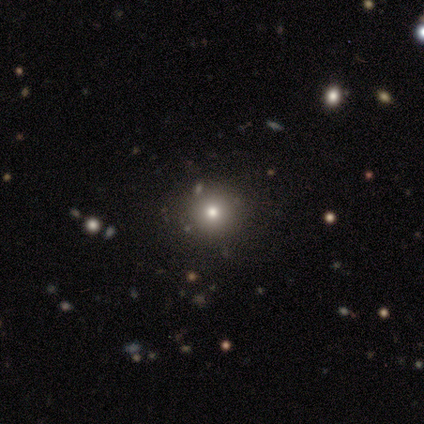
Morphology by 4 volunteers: Consensus on every question: smooth or featured — smooth (100%); how rounded — round (100%); merging — none (100%).